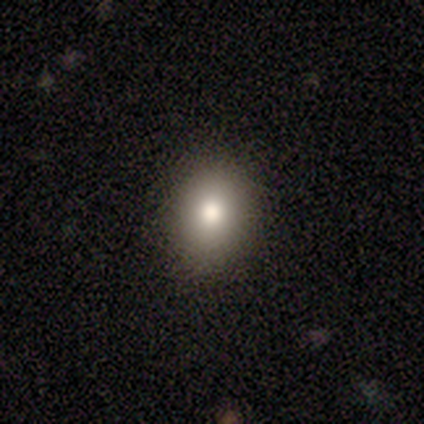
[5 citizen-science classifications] Overall: smooth (40%, tied with star or artifact). How rounded: round (50%, tied with in between). Merging: none (100%).